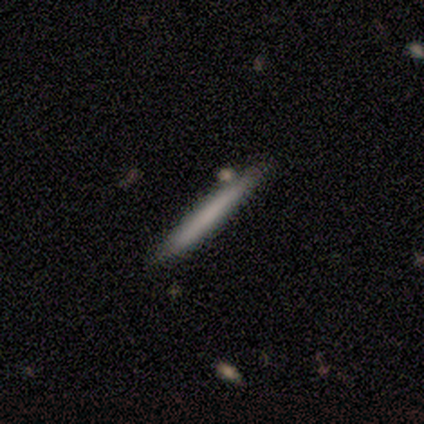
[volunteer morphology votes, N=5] Overall: featured or disk (60%; smooth 40%). Edge-on disk: yes (100%). Edge-on bulge: none (67%; boxy 33%). Merging: none (80%).